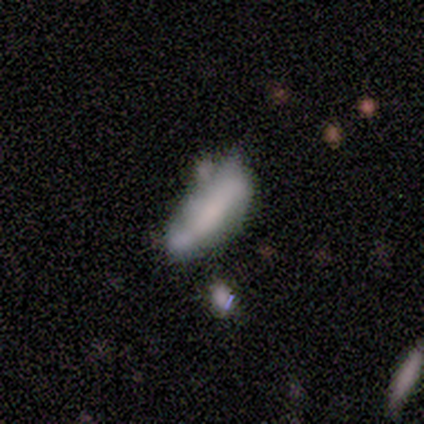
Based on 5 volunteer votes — This appears to be a featured or disk galaxy (60%) with a strong bar (50%, tied with no), 2 (100%) medium (100%) spiral arms (50%, tied with no) and no central bulge (100%). Merging: minor disturbance (50%).